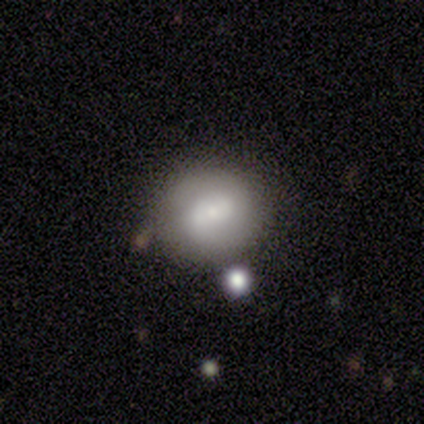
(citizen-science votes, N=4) Smooth or featured?
  - smooth: 100% *
  - featured or disk: 0%
  - star or artifact: 0%
How rounded?
  - round: 100% *
  - in between: 0%
  - cigar-shaped: 0%
Merging?
  - none: 75% *
  - major disturbance: 25%
  - minor disturbance: 0%
  - merger: 0%